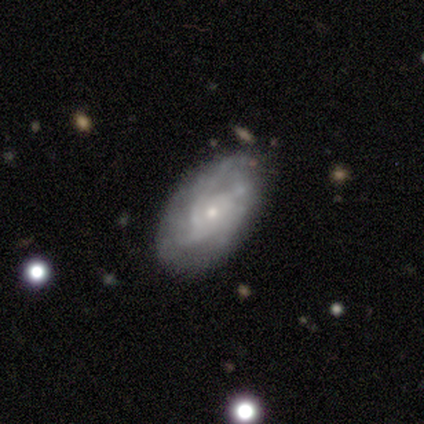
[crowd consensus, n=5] A smooth galaxy with no disk features (40%, tied with featured or disk) that is in between round and cigar-shaped (50%, tied with cigar-shaped). Merging: none (75%).